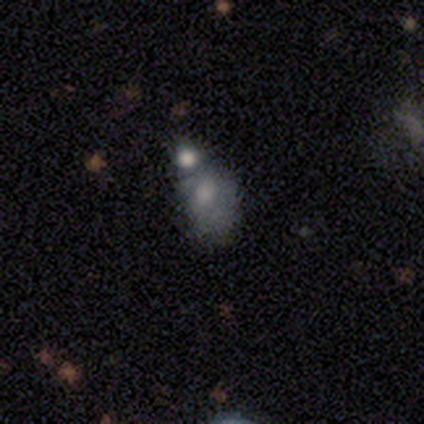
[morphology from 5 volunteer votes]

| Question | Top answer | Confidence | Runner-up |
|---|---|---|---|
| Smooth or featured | smooth | 100% | — |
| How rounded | in between | 60% | round (40%) |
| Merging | none | 40% | tied: merger (40%) |